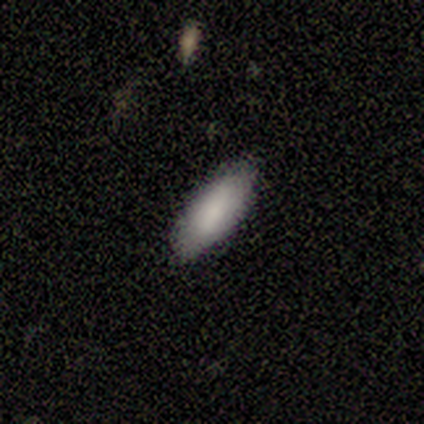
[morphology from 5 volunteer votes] smooth-or-featured: smooth: 60% | featured or disk: 40% | star or artifact: 0%
  how-rounded: in between: 100% | round: 0% | cigar-shaped: 0%
  merging: none: 60% | minor disturbance: 40% | major disturbance: 0% | merger: 0%